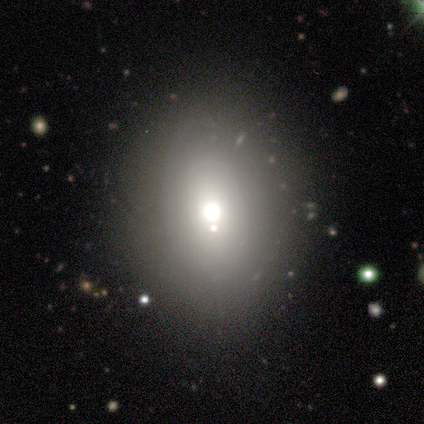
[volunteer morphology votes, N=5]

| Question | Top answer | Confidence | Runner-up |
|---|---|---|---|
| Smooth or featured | smooth | 60% | featured or disk (20%) |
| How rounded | in between | 67% | round (33%) |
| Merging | none | 75% | merger (25%) |